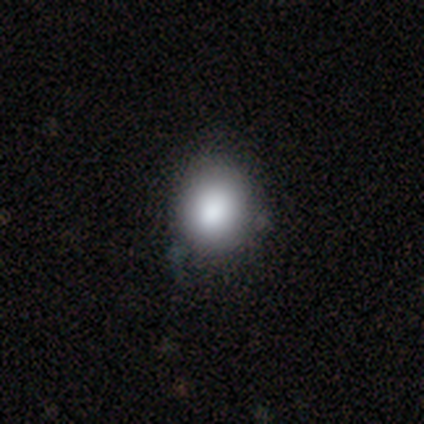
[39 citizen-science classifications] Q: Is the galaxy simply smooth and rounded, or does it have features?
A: smooth — 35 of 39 (90%).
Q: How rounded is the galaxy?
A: round — 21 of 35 (60%).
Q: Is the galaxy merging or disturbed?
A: none — 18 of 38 (47%).